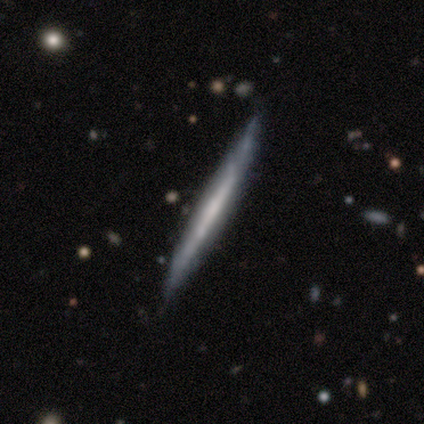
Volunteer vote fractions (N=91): This is likely a featured or disk galaxy (68%). It is clearly viewed edge-on (98%). Edge-on bulge: clearly none (87%). Merging: clearly none (85%).